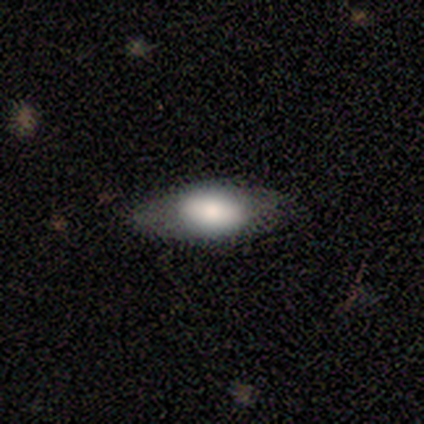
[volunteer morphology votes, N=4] This appears to be a smooth galaxy with no disk features (100%) that is in between round and cigar-shaped (100%). Merging: none (50%).